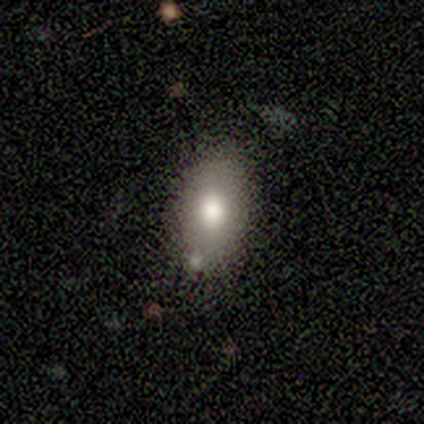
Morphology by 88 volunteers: Smooth or featured? 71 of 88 (81%) said smooth. How rounded? 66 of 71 (93%) said in between. Merging? 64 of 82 (78%) said none.